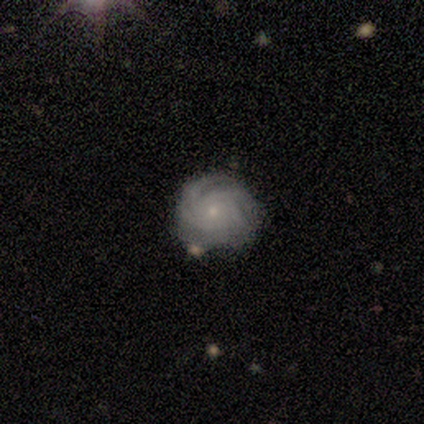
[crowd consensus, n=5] Volunteers were most divided on "spiral arm count": 4: 40%, 2: 20%, 3: 20%, more than 4: 20%, 1: 0%, can't tell: 0%. More confident: smooth or featured — featured or disk (100%); edge-on disk — no (100%); bar — no (100%); spiral arms — yes (100%); spiral winding — tight (100%); bulge size — small (80%); merging — none (60%).